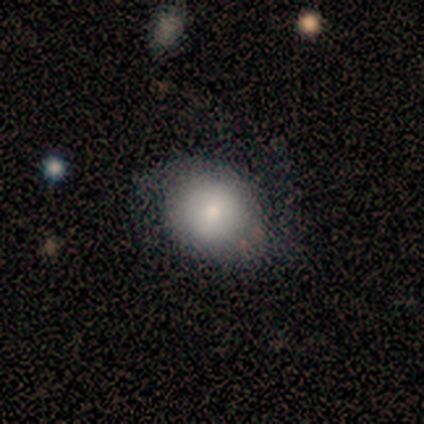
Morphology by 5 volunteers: Smooth or featured?
  - featured or disk: 80% *
  - smooth: 20%
  - star or artifact: 0%
Edge-on disk?
  - no: 100% *
  - yes: 0%
Bar?
  - no: 100% *
  - strong: 0%
  - weak: 0%
Spiral arms?
  - no: 75% *
  - yes: 25%
Bulge size?
  - moderate: 75% *
  - small: 25%
  - dominant: 0%
  - large: 0%
  - none: 0%
Merging?
  - none: 80% *
  - minor disturbance: 20%
  - major disturbance: 0%
  - merger: 0%